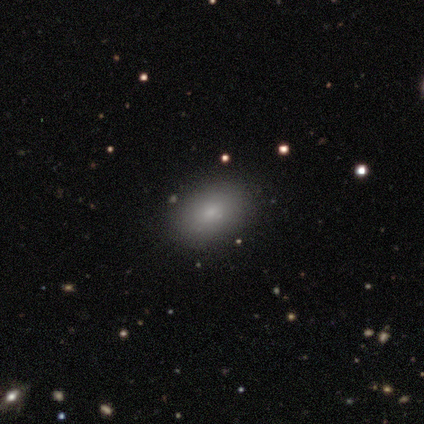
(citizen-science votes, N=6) Morphology: type=smooth (67%); roundness=round (50%, tied with in between); merging=none (80%).